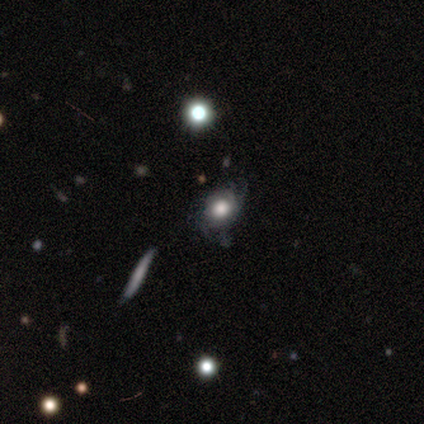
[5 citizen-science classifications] A smooth galaxy with no disk features (40%, tied with star or artifact) that is round (50%, tied with cigar-shaped).

Vote fractions:
- Smooth or featured? smooth: 40% (tied) / star or artifact: 40% (tied) / featured or disk: 20%
- How rounded? round: 50% (tied) / cigar-shaped: 50% (tied) / in between: 0%
- Merging? none: 67% / major disturbance: 33% / minor disturbance: 0% / merger: 0%